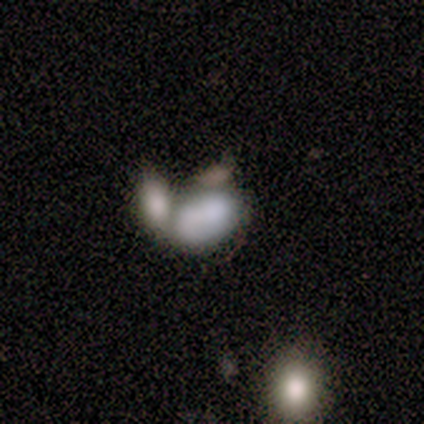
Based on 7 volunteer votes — Smooth or featured? smooth (86%)
How rounded? in between (100%)
Merging? merger (67%)